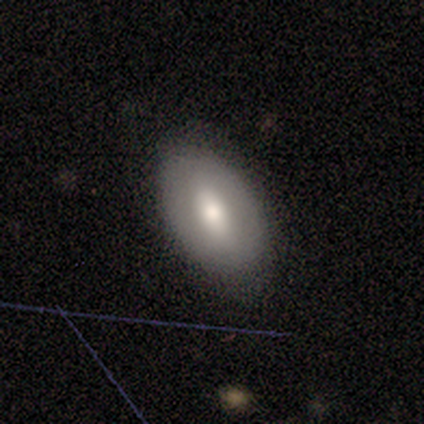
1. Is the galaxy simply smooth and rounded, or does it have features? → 60% smooth, 20% featured or disk, 20% star or artifact.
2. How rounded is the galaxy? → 100% in between, 0% round, 0% cigar-shaped.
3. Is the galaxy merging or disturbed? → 100% none, 0% minor disturbance, 0% major disturbance, 0% merger.